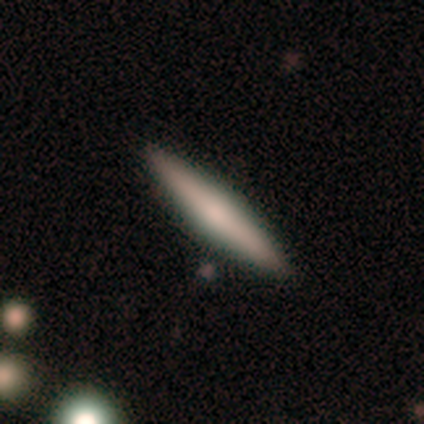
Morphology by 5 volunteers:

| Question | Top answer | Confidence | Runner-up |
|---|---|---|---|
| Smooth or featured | smooth | 60% | featured or disk (40%) |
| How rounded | cigar-shaped | 100% | — |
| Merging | none | 100% | — |